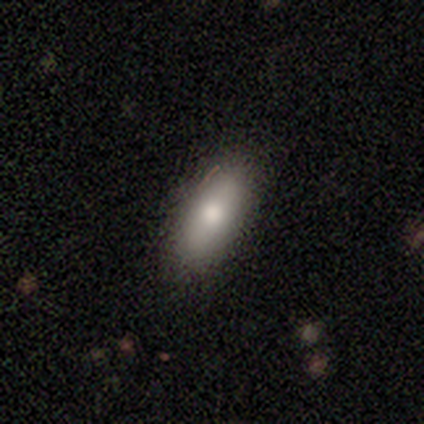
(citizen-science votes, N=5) Smooth or featured? smooth (80%)
How rounded? in between (100%)
Merging? none (75%)